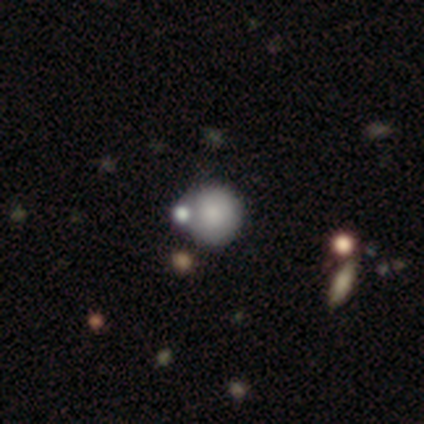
This appears to be a smooth galaxy with no disk features (75%) that is round (100%). Merging: none (33%, tied with minor disturbance and merger).